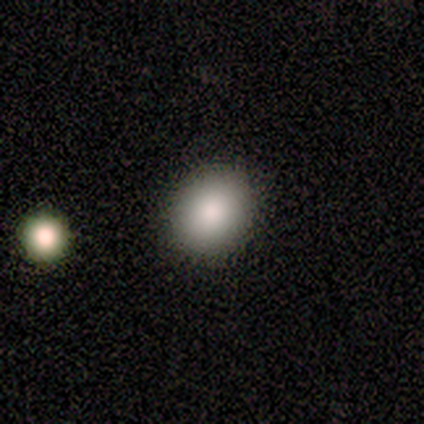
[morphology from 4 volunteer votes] A smooth galaxy with no disk features (100%) that is in between round and cigar-shaped (75%). Merging: none (100%).